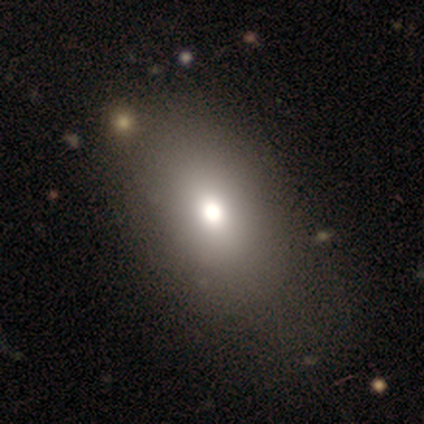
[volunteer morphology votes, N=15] A smooth galaxy with no disk features (73%) that is in between round and cigar-shaped (100%). Merging: none (79%).